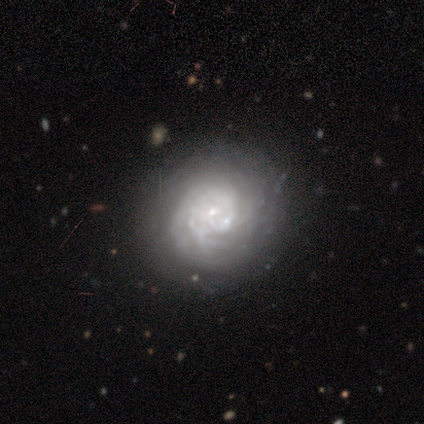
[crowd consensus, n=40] Smooth or featured? featured or disk (85%)
Edge-on disk? no (100%)
Bar? no (74%)
Spiral arms? yes (82%)
Spiral winding? tight (75%)
Spiral arm count? can't tell (57%)
Bulge size? small (74%)
Merging? none (68%)